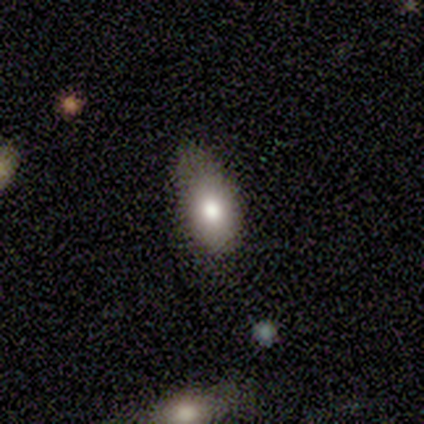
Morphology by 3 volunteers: Smooth or featured?
  - smooth: 67% *
  - featured or disk: 33%
  - star or artifact: 0%
How rounded?
  - in between: 100% *
  - round: 0%
  - cigar-shaped: 0%
Merging?
  - minor disturbance: 100% *
  - none: 0%
  - major disturbance: 0%
  - merger: 0%